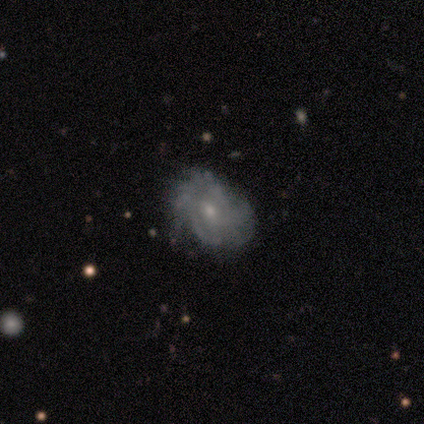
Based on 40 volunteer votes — A featured or disk galaxy (90%) with no bar (72%), 3 (39%) tight (54%) spiral arms (78%) and a small central bulge (67%).

Vote fractions:
- Smooth or featured? featured or disk: 90% / smooth: 8% / star or artifact: 2%
- Edge-on disk? no: 100% / yes: 0%
- Bar? no: 72% / weak: 25% / strong: 3%
- Spiral arms? yes: 78% / no: 22%
- Spiral winding? tight: 54% / medium: 39% / loose: 7%
- Spiral arm count? 3: 39% / 4: 21% / can't tell: 21% / more than 4: 14% / 2: 4% / 1: 0%
- Bulge size? small: 67% / moderate: 31% / none: 3% / dominant: 0% / large: 0%
- Merging? none: 62% / minor disturbance: 36% / major disturbance: 3% / merger: 0%